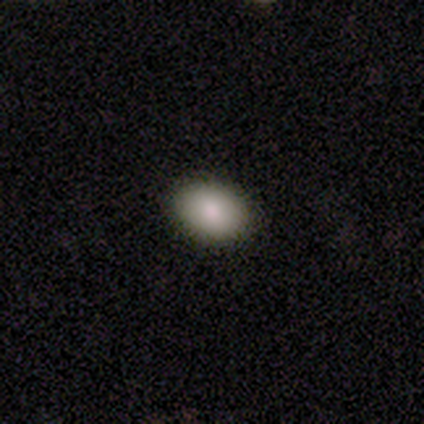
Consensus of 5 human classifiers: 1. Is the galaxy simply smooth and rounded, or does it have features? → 100% smooth, 0% featured or disk, 0% star or artifact.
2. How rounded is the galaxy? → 100% in between, 0% round, 0% cigar-shaped.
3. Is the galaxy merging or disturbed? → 100% none, 0% minor disturbance, 0% major disturbance, 0% merger.